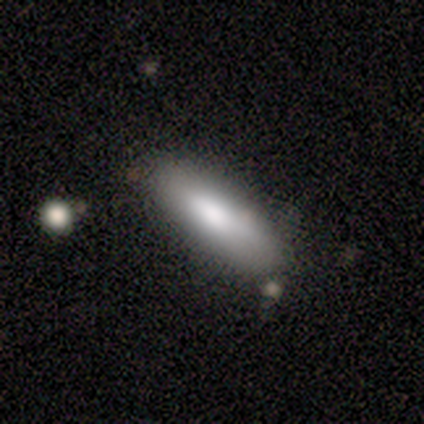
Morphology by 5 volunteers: Smooth or featured?
  - smooth: 100% *
  - featured or disk: 0%
  - star or artifact: 0%
How rounded?
  - in between: 60% *
  - cigar-shaped: 40%
  - round: 0%
Merging?
  - none: 40% * (tied)
  - minor disturbance: 40% * (tied)
  - merger: 20%
  - major disturbance: 0%